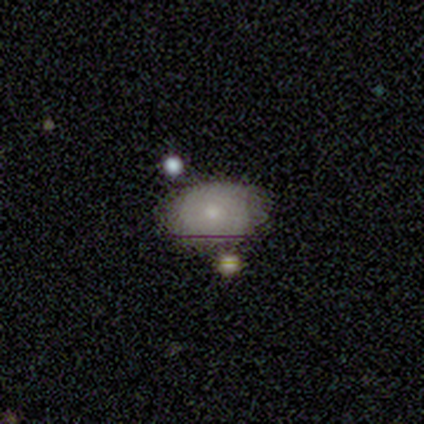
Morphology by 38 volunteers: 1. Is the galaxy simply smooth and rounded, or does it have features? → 68% smooth, 26% featured or disk, 5% star or artifact.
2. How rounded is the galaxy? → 62% in between, 31% round, 8% cigar-shaped.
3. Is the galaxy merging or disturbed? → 75% none, 14% minor disturbance, 8% merger, 3% major disturbance.